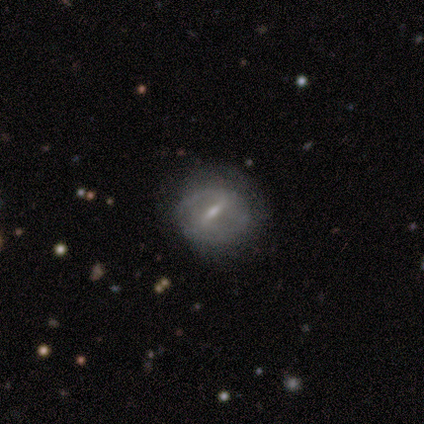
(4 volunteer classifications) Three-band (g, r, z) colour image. It shows a featured or disk galaxy (75%) with a weak bar (67%), no spiral arms (67%) and a small central bulge (67%). Merging: none (67%).